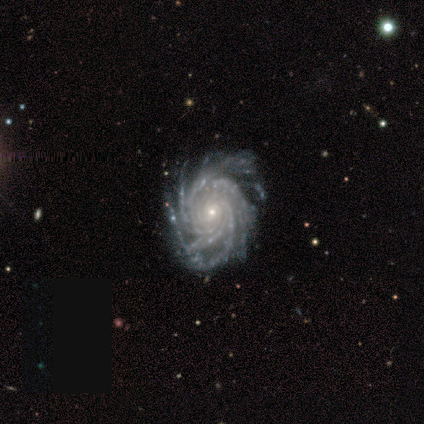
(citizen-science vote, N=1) This is clearly a featured or disk galaxy (100%). It is clearly not viewed edge-on (100%). Bar: clearly no (100%). Spiral arm pattern: clearly yes (100%). Spiral arm count: clearly more than 4 (100%). Spiral winding: clearly tight (100%). Central bulge: clearly small (100%). Merging: clearly none (100%).